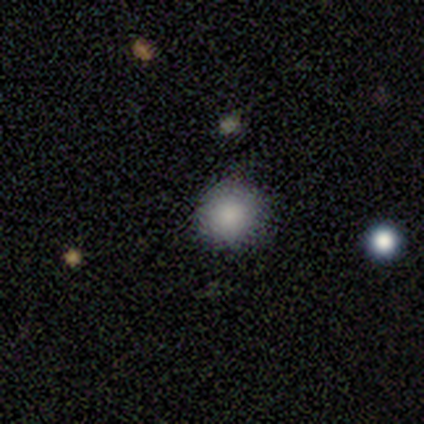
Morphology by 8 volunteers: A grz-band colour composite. It shows a smooth galaxy with no disk features (75%) that is round (100%). Merging: none (100%).